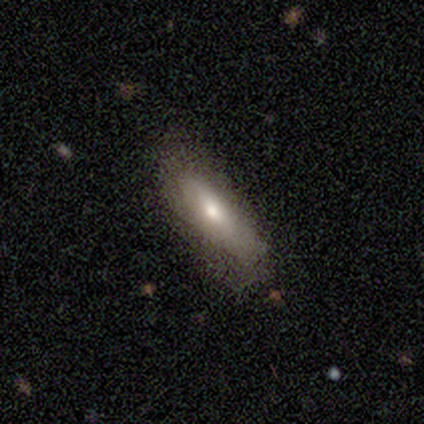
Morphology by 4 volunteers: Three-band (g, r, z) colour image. It shows a smooth galaxy with no disk features (100%) that is in between round and cigar-shaped (75%). Merging: none (100%).